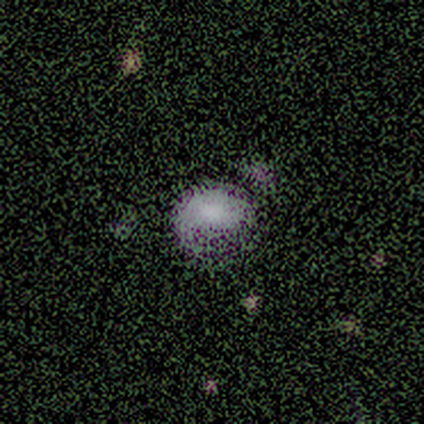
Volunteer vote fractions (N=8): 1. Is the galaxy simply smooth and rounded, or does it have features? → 50% smooth (tied), 50% featured or disk (tied), 0% star or artifact.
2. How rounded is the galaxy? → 75% in between, 25% round, 0% cigar-shaped.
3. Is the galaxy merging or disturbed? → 50% none, 25% minor disturbance, 12% major disturbance, 12% merger.